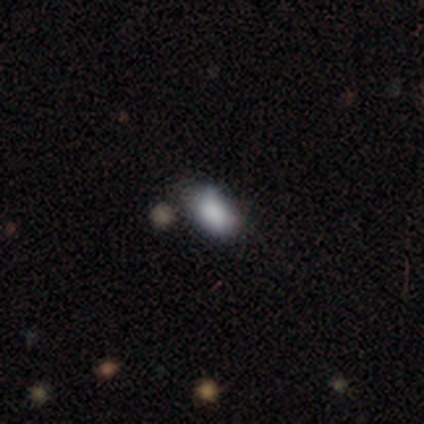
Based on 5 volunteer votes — Smooth or featured? smooth (100%)
How rounded? in between (100%)
Merging? none (60%)